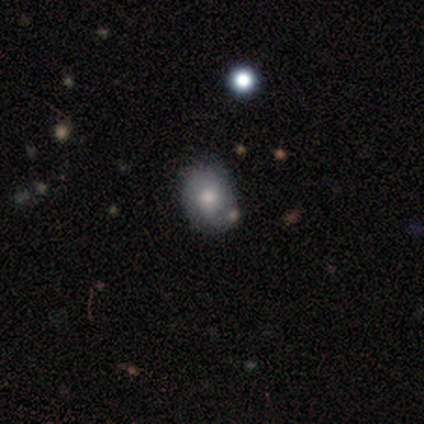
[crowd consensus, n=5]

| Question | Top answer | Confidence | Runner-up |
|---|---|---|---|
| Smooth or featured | smooth | 80% | star or artifact (20%) |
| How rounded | round | 75% | in between (25%) |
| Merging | none | 75% | minor disturbance (25%) |